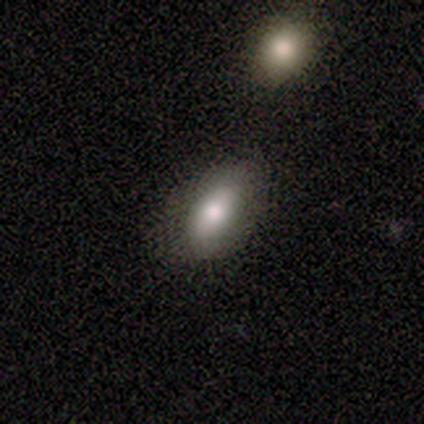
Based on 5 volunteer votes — smooth-or-featured: smooth: 100% | featured or disk: 0% | star or artifact: 0%
  how-rounded: in between: 80% | cigar-shaped: 20% | round: 0%
  merging: none: 80% | major disturbance: 20% | minor disturbance: 0% | merger: 0%